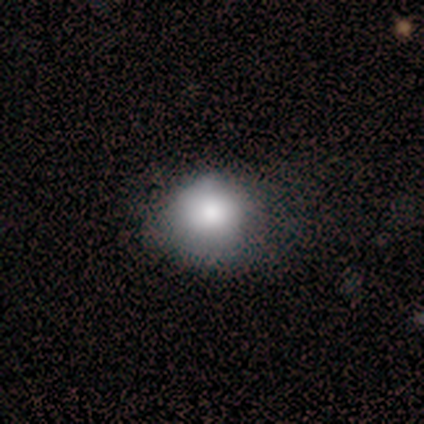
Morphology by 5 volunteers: A smooth galaxy with no disk features (100%) that is round (60%).

Vote fractions:
- Smooth or featured? smooth: 100% / featured or disk: 0% / star or artifact: 0%
- How rounded? round: 60% / in between: 40% / cigar-shaped: 0%
- Merging? none: 60% / minor disturbance: 20% / major disturbance: 20% / merger: 0%